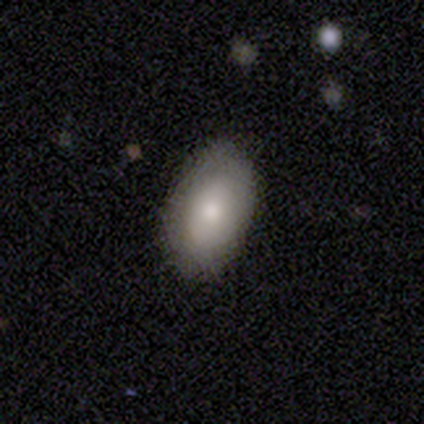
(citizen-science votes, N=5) A smooth galaxy with no disk features (80%) that is in between round and cigar-shaped (100%).

Vote fractions:
- Smooth or featured? smooth: 80% / featured or disk: 20% / star or artifact: 0%
- How rounded? in between: 100% / round: 0% / cigar-shaped: 0%
- Merging? none: 100% / minor disturbance: 0% / major disturbance: 0% / merger: 0%